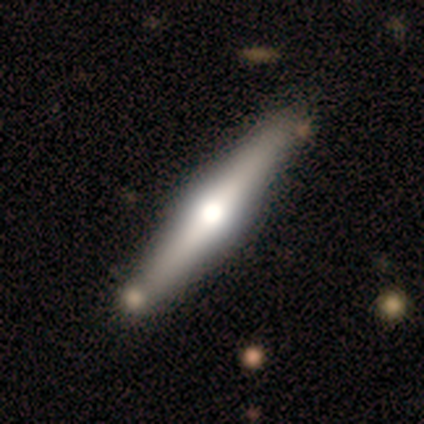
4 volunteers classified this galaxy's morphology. This appears to be a star or artifact, not a galaxy (50%).